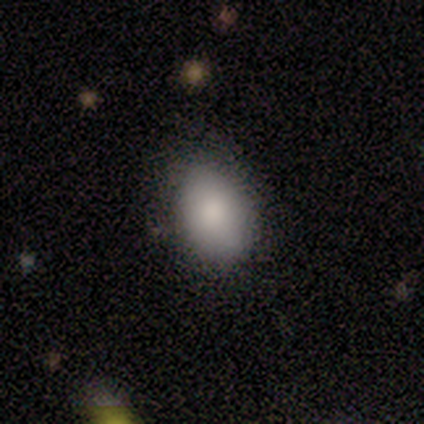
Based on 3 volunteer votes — This appears to be a smooth galaxy with no disk features (100%) that is in between round and cigar-shaped (100%). Merging: none (100%).